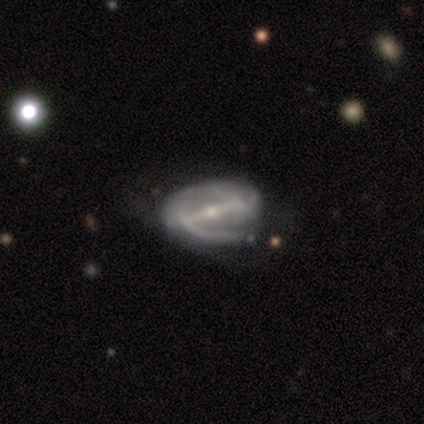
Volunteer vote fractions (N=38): This is clearly a featured or disk galaxy (92%). It is clearly not viewed edge-on (97%). Bar: clearly strong (88%). Spiral arm pattern: clearly yes (91%). Spiral arm count: clearly 2 (81%). Spiral winding: possibly medium (48%). Central bulge: possibly small (53%). Merging: marginally none (42%).